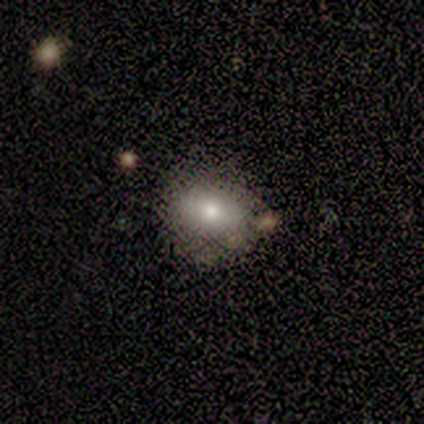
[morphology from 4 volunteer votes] A smooth galaxy with no disk features (75%) that is round (67%).

Vote fractions:
- Smooth or featured? smooth: 75% / featured or disk: 25% / star or artifact: 0%
- How rounded? round: 67% / in between: 33% / cigar-shaped: 0%
- Merging? none: 50% (tied) / minor disturbance: 50% (tied) / major disturbance: 0% / merger: 0%